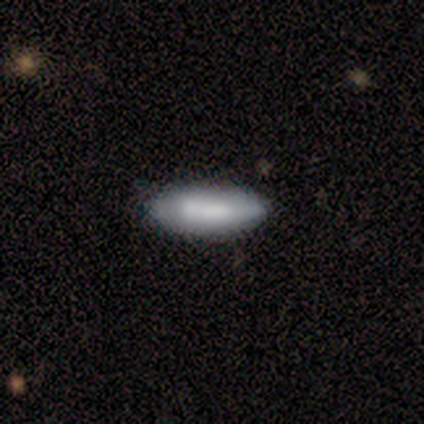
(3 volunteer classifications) Overall: smooth (100%). How rounded: in between (67%; cigar-shaped 33%). Merging: none (100%).